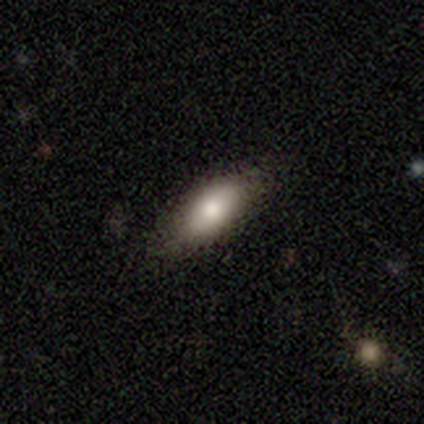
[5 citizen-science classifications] This appears to be a smooth galaxy with no disk features (100%) that is in between round and cigar-shaped (80%). Merging: none (100%).